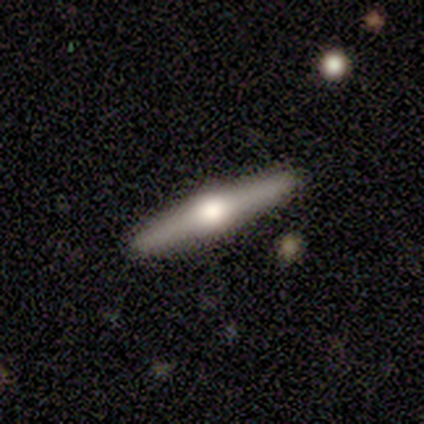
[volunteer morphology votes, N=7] Smooth or featured?
  - featured or disk: 86% *
  - smooth: 14%
  - star or artifact: 0%
Edge-on disk?
  - yes: 100% *
  - no: 0%
Edge-on bulge?
  - rounded: 100% *
  - boxy: 0%
  - none: 0%
Merging?
  - none: 100% *
  - minor disturbance: 0%
  - major disturbance: 0%
  - merger: 0%